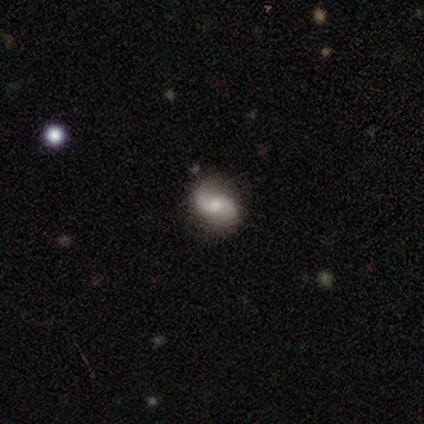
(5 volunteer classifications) A featured or disk galaxy (100%) with no bar (100%), 2 (100%) loose (60%) spiral arms (100%) and a moderate central bulge (60%). Merging: none (80%).